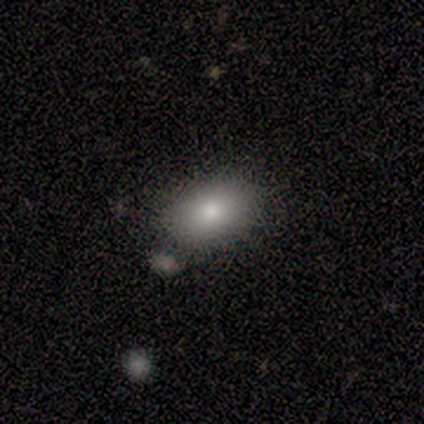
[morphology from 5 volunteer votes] This appears to be a smooth galaxy with no disk features (60%) that is in between round and cigar-shaped (100%). Merging: none (50%).